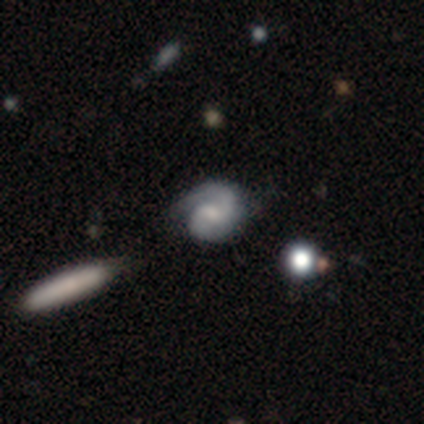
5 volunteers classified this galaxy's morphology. smooth-or-featured: featured or disk: 80% | smooth: 20% | star or artifact: 0%
  disk-edge-on: no: 100% | yes: 0%
    bar: no: 100% | strong: 0% | weak: 0%
    has-spiral-arms: yes: 75% | no: 25%
      spiral-winding: medium: 67% | loose: 33% | tight: 0%
      spiral-arm-count: 2: 100% | 1: 0% | 3: 0% | 4: 0% | more than 4: 0% | can't tell: 0%
    bulge-size: none: 75% | small: 25% | dominant: 0% | large: 0% | moderate: 0%
  merging: minor disturbance: 60% | none: 40% | major disturbance: 0% | merger: 0%